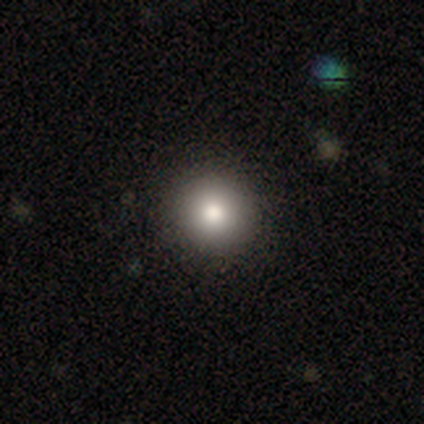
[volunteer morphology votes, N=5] featured or disk 60%, smooth 20%, star or artifact 20%. Down the decision tree: edge-on disk — no (100%); bar — no (100%); spiral arms — no (100%); bulge size — large (67%); merging — none (100%).